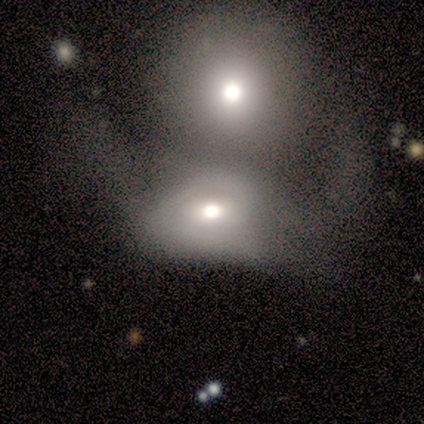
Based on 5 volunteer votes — Smooth or featured? smooth (60%)
How rounded? round (67%)
Merging? merger (80%)